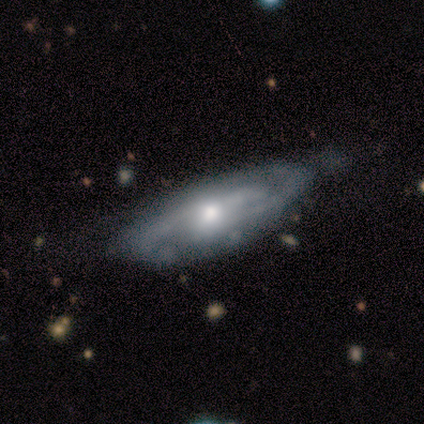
Q: Smooth or featured?
A: featured or disk (78%); runner-up: smooth (22%)
Q: Edge-on disk?
A: no (71%); runner-up: yes (29%)
Q: Bar?
A: no (80%); runner-up: weak (20%)
Q: Spiral arms?
A: yes (100%)
Q: Spiral winding?
A: medium (60%); runner-up: loose (40%)
Q: Spiral arm count?
A: 2 (60%); runner-up: 3 (20%)
Q: Bulge size?
A: moderate (60%); runner-up: large (20%)
Q: Merging?
A: minor disturbance (33%); runner-up: none (22%)